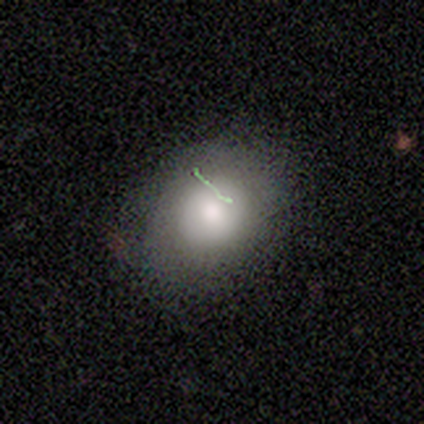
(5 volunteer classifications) A smooth galaxy with no disk features (80%) that is round (50%, tied with in between). Merging: none (80%).